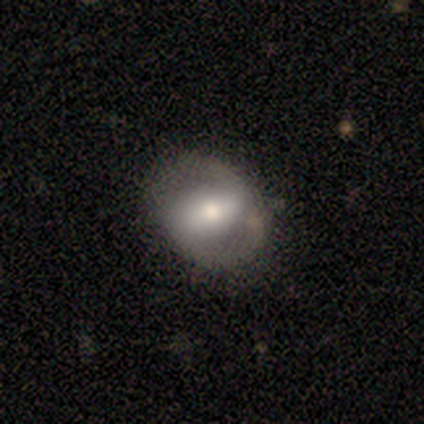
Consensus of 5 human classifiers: Smooth or featured?
  - featured or disk: 60% *
  - smooth: 40%
  - star or artifact: 0%
Edge-on disk?
  - no: 100% *
  - yes: 0%
Bar?
  - strong: 67% *
  - no: 33%
  - weak: 0%
Spiral arms?
  - yes: 67% *
  - no: 33%
Spiral winding?
  - medium: 50% * (tied)
  - loose: 50% * (tied)
  - tight: 0%
Spiral arm count?
  - 2: 50% * (tied)
  - can't tell: 50% * (tied)
  - 1: 0%
  - 3: 0%
  - 4: 0%
  - more than 4: 0%
Bulge size?
  - moderate: 100% *
  - dominant: 0%
  - large: 0%
  - small: 0%
  - none: 0%
Merging?
  - none: 60% *
  - minor disturbance: 20%
  - major disturbance: 20%
  - merger: 0%